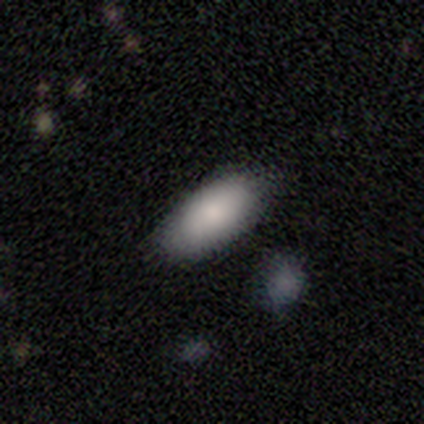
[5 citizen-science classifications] Overall: smooth (80%). How rounded: in between (100%). Merging: none (100%).